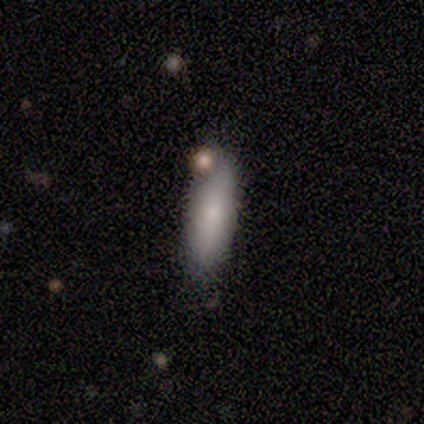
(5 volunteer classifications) This appears to be a smooth galaxy with no disk features (80%) that is in between round and cigar-shaped (75%). Merging: minor disturbance (60%).